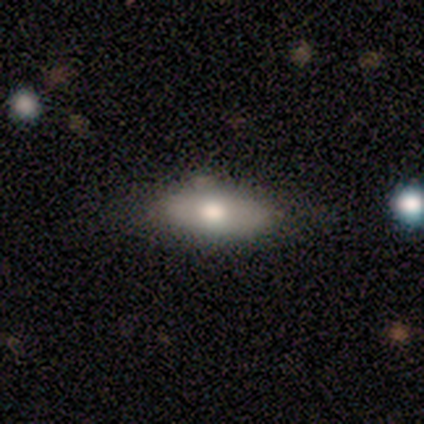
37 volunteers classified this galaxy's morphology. A smooth galaxy with no disk features (62%) that is in between round and cigar-shaped (83%).

Vote fractions:
- Smooth or featured? smooth: 62% / featured or disk: 38% / star or artifact: 0%
- How rounded? in between: 83% / cigar-shaped: 17% / round: 0%
- Merging? none: 78% / minor disturbance: 19% / major disturbance: 3% / merger: 0%